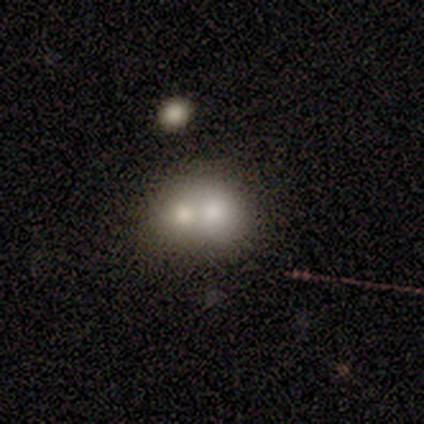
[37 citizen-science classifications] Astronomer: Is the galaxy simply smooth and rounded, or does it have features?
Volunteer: smooth — 65%.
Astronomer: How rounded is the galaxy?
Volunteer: round — 58% (runner-up: in between, 42%).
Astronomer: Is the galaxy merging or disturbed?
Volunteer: merger — 69%.